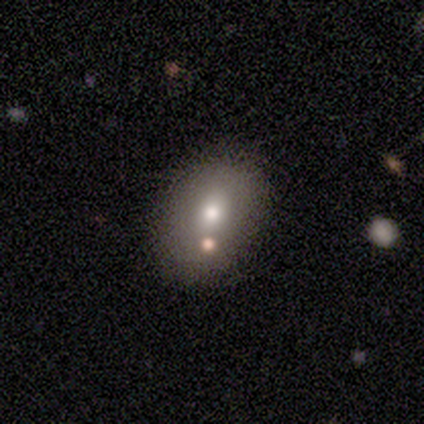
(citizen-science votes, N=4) A featured or disk galaxy (75%) with no bar (100%), no spiral arms (100%) and a moderate central bulge (67%). Merging: none (50%).